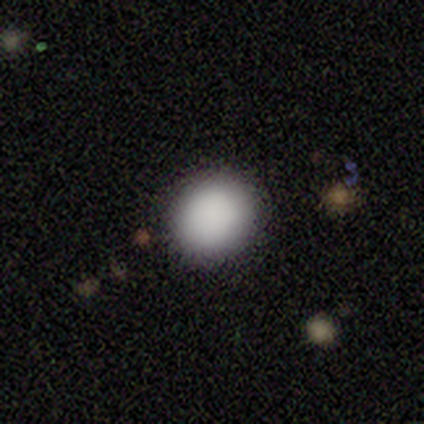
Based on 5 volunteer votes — Smooth or featured?
  - smooth: 100% *
  - featured or disk: 0%
  - star or artifact: 0%
How rounded?
  - round: 80% *
  - in between: 20%
  - cigar-shaped: 0%
Merging?
  - none: 100% *
  - minor disturbance: 0%
  - major disturbance: 0%
  - merger: 0%